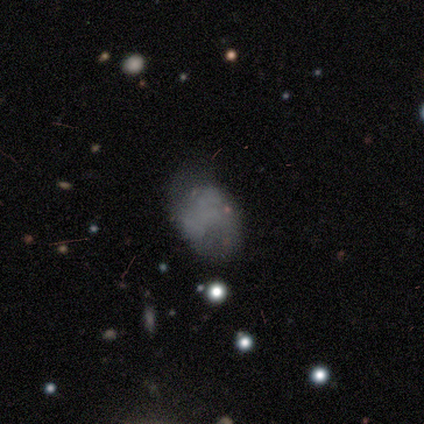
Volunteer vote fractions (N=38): Q: Smooth or featured?
A: smooth (42%); tied with: featured or disk (42%)
Q: How rounded?
A: in between (94%); runner-up: round (6%)
Q: Merging?
A: none (69%); runner-up: minor disturbance (22%)